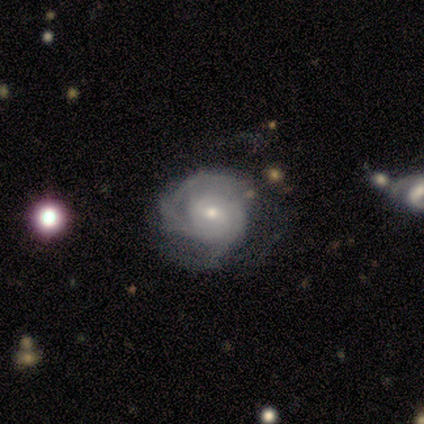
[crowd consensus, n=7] This appears to be a featured or disk galaxy (86%) with a weak bar (67%), tight (67%) spiral arms (100%) and a small central bulge (67%). Merging: none (43%, tied with minor disturbance).